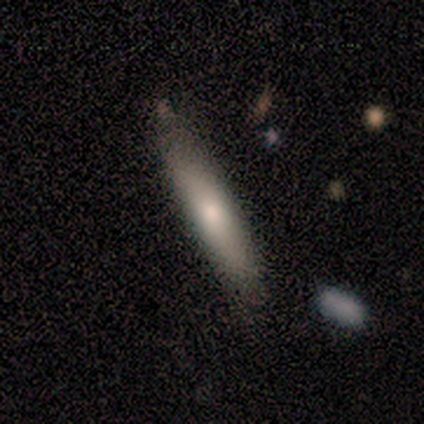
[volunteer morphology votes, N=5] Smooth or featured: smooth — 80% (featured or disk — 20%)
How rounded: cigar-shaped — 75% (in between — 25%)
Merging: none — 60% (minor disturbance — 40%)